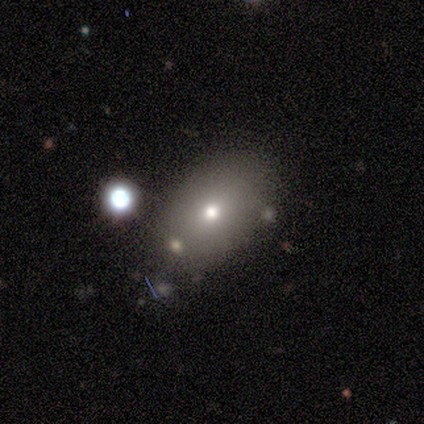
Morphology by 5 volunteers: smooth-or-featured: smooth: 60% | featured or disk: 20% | star or artifact: 20%
  how-rounded: in between: 100% | round: 0% | cigar-shaped: 0%
  merging: none: 75% | minor disturbance: 25% | major disturbance: 0% | merger: 0%